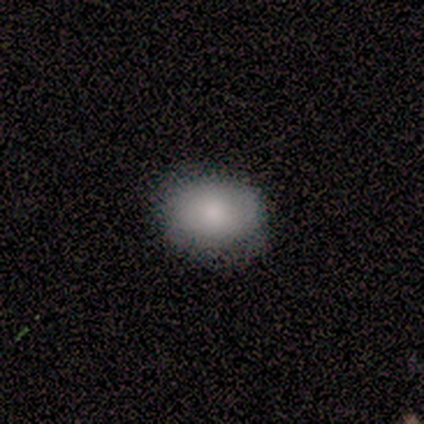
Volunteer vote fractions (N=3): smooth_or_featured: smooth (p=1.00)
how_rounded: in between (p=1.00)
merging: none (p=0.67) [alt: minor disturbance p=0.33]